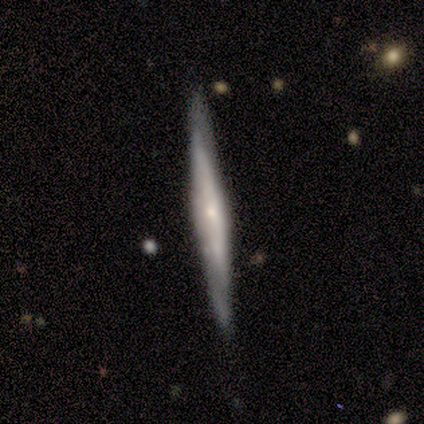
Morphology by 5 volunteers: smooth_or_featured: featured or disk (p=0.80) [alt: smooth p=0.20]
disk_edge_on: yes (p=1.00)
edge_on_bulge: none (p=0.50) [tied with: rounded p=0.50]
merging: none (p=0.80) [alt: minor disturbance p=0.20]